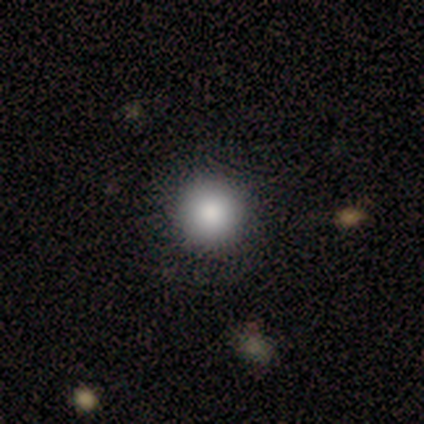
Consensus on every question: smooth or featured — smooth (100%); how rounded — round (100%); merging — none (100%).